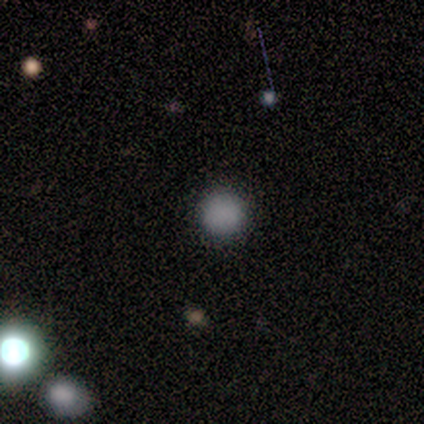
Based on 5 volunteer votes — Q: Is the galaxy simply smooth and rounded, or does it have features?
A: smooth — 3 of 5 (60%).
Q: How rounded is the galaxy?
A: round — 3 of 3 (100%).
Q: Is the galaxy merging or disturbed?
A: none — 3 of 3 (100%).